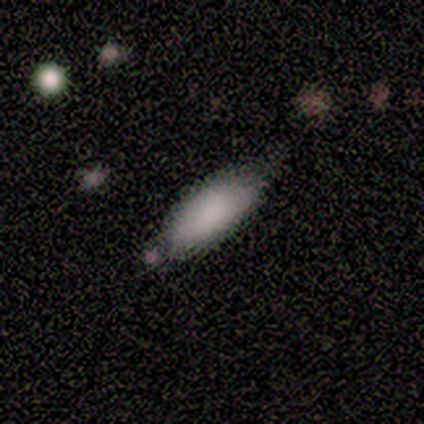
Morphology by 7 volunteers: Smooth or featured? 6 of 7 (86%) said smooth. How rounded? 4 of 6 (67%) said in between. Merging? 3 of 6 (50%) said none.